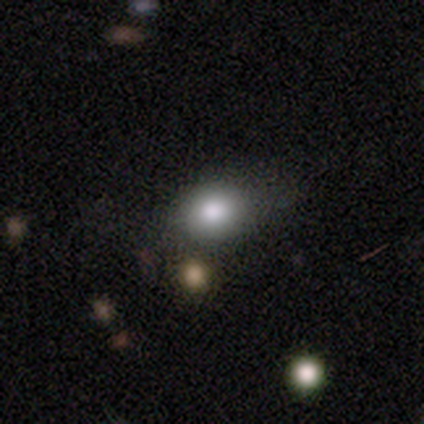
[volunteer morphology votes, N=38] Smooth or featured?
  - smooth: 76% *
  - star or artifact: 16%
  - featured or disk: 8%
How rounded?
  - round: 72% *
  - in between: 28%
  - cigar-shaped: 0%
Merging?
  - none: 75% *
  - minor disturbance: 19%
  - major disturbance: 3%
  - merger: 3%